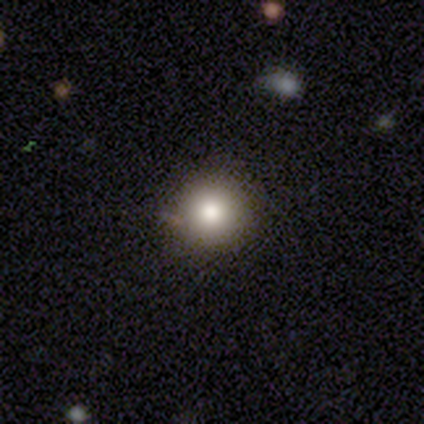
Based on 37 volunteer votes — A smooth galaxy with no disk features (89%) that is round (100%).

Vote fractions:
- Smooth or featured? smooth: 89% / featured or disk: 5% / star or artifact: 5%
- How rounded? round: 100% / in between: 0% / cigar-shaped: 0%
- Merging? none: 97% / minor disturbance: 3% / major disturbance: 0% / merger: 0%